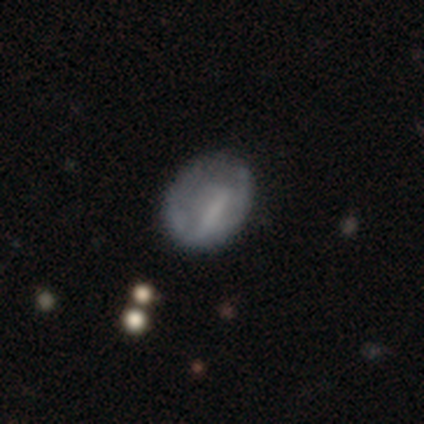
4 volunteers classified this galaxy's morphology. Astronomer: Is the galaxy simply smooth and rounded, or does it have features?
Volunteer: smooth — 75%.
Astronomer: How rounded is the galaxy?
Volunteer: in between — 67%.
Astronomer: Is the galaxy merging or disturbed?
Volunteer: none — 100%.